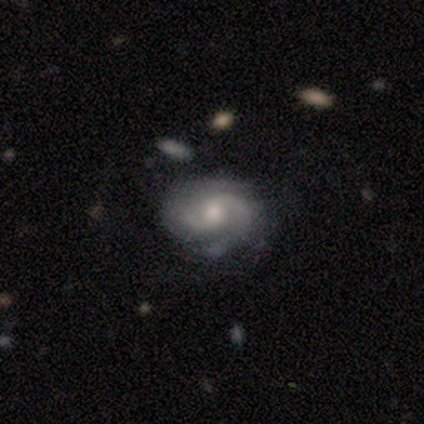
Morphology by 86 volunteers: smooth_or_featured: featured or disk (p=0.88) [alt: smooth p=0.07]
disk_edge_on: no (p=1.00)
bar: no (p=0.61) [alt: weak p=0.37]
has_spiral_arms: yes (p=0.95) [alt: no p=0.05]
spiral_winding: medium (p=0.46) [alt: tight p=0.44]
spiral_arm_count: 2 (p=0.76) [alt: 3 p=0.10]
bulge_size: moderate (p=0.55) [alt: small p=0.32]
merging: none (p=0.82) [alt: minor disturbance p=0.13]